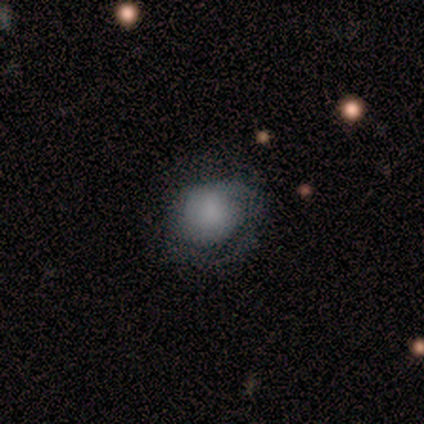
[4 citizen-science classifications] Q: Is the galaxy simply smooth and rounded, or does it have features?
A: smooth — 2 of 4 (50%, tied with featured or disk).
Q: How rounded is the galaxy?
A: in between — 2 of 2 (100%).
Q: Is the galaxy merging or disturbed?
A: none — 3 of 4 (75%).